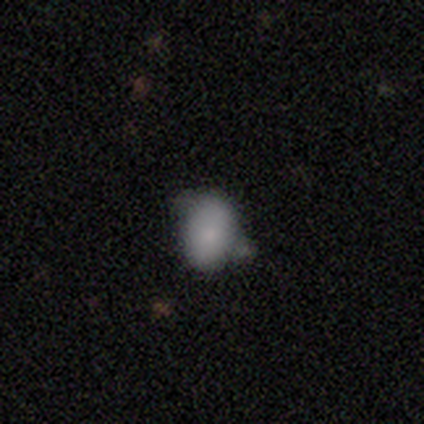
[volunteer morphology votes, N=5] Smooth or featured?
  - smooth: 100% *
  - featured or disk: 0%
  - star or artifact: 0%
How rounded?
  - in between: 100% *
  - round: 0%
  - cigar-shaped: 0%
Merging?
  - minor disturbance: 80% *
  - none: 20%
  - major disturbance: 0%
  - merger: 0%